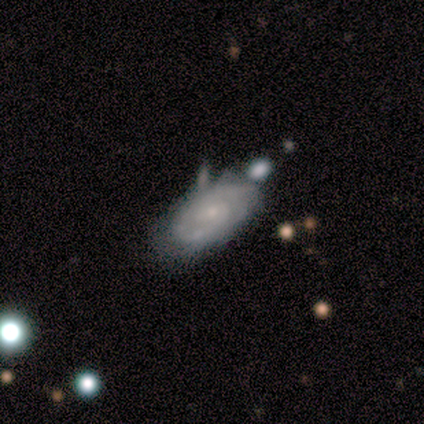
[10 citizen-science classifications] Overall: featured or disk (70%; smooth 30%). Edge-on disk: no (100%). Bar: no (100%). Spiral arms: yes (100%). Spiral arm count: 2 (71%). Spiral winding: tight (86%). Bulge size: small (71%). Merging: none (70%).